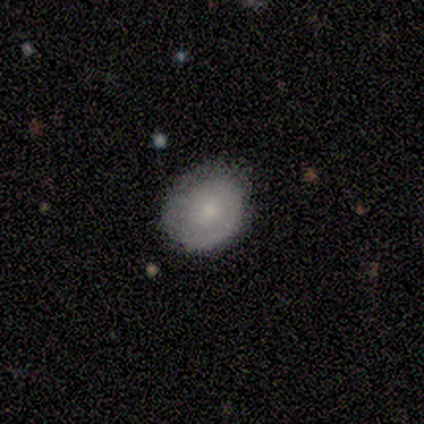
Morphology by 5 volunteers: Smooth or featured? 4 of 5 (80%) said smooth. How rounded? 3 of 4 (75%) said round. Merging? 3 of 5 (60%) said none.